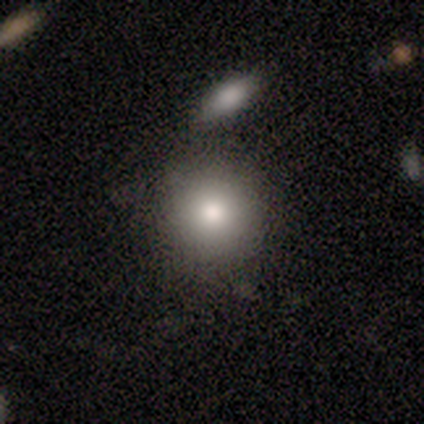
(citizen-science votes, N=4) This is clearly a smooth galaxy (100%). How rounded: clearly round (100%). Merging: clearly none (100%).